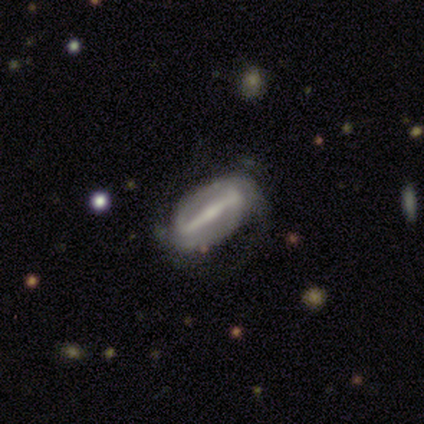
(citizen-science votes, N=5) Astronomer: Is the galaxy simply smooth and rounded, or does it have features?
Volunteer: featured or disk — 100%.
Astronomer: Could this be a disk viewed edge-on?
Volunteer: no — 80%.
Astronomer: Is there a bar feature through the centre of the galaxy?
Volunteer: strong — 100%.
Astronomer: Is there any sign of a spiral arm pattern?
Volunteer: yes — 100%.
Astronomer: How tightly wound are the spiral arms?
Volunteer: medium — 100%.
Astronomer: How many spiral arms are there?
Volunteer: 2 — 75%.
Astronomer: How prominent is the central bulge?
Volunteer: moderate — 50%, tied with small at 50%.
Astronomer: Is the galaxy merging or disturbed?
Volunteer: none — 100%.